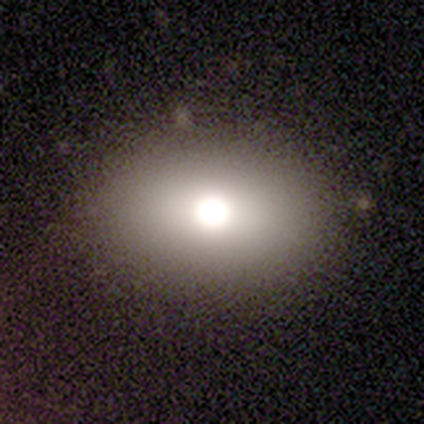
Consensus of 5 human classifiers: Smooth or featured: smooth — 80% (featured or disk — 20%)
How rounded: in between — 75% (round — 25%)
Merging: none — 60% (minor disturbance — 40%)